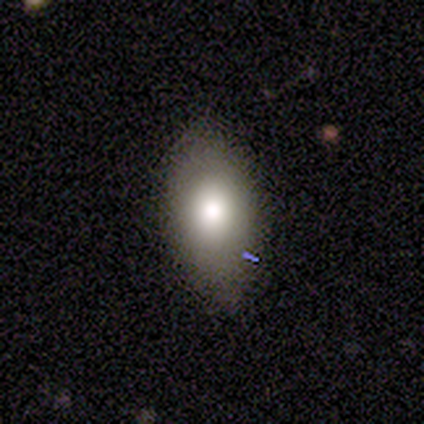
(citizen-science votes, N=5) A smooth galaxy with no disk features (80%) that is in between round and cigar-shaped (75%).

Vote fractions:
- Smooth or featured? smooth: 80% / featured or disk: 20% / star or artifact: 0%
- How rounded? in between: 75% / cigar-shaped: 25% / round: 0%
- Merging? none: 80% / minor disturbance: 20% / major disturbance: 0% / merger: 0%